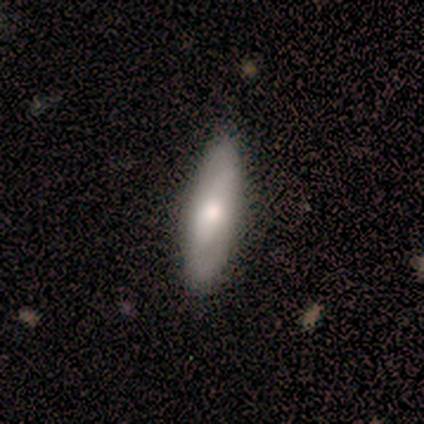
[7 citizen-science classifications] Morphology: type=smooth (71%); roundness=cigar-shaped (60%); merging=none (83%).